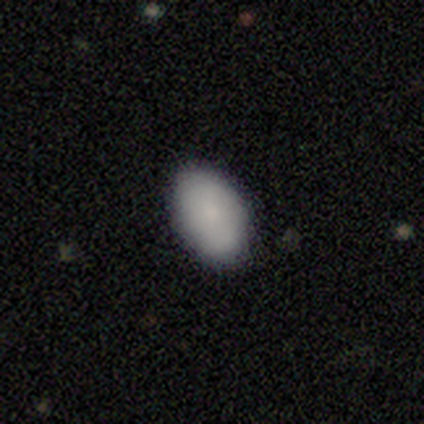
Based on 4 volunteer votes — Smooth or featured? 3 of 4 (75%) said smooth. How rounded? 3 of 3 (100%) said in between. Merging? 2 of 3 (67%) said none.